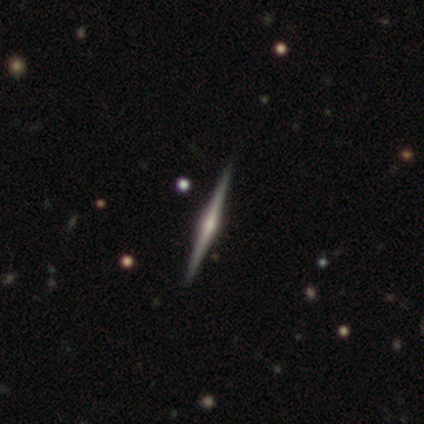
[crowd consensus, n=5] A featured or disk galaxy (100%) viewed edge-on (100%) with a rounded central bulge (100%).

Vote fractions:
- Smooth or featured? featured or disk: 100% / smooth: 0% / star or artifact: 0%
- Edge-on disk? yes: 100% / no: 0%
- Edge-on bulge? rounded: 100% / boxy: 0% / none: 0%
- Merging? none: 60% / minor disturbance: 40% / major disturbance: 0% / merger: 0%